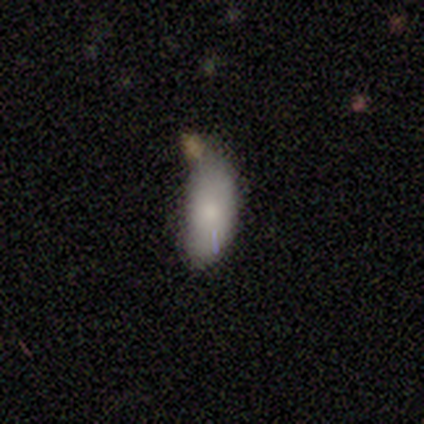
This is clearly a smooth galaxy (86%). How rounded: clearly in between (83%). Merging: marginally none (43%).